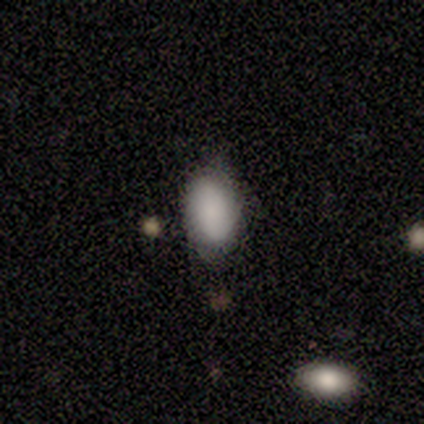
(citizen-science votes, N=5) Smooth or featured: smooth — 100%
How rounded: in between — 100%
Merging: none — 60% (minor disturbance — 40%)